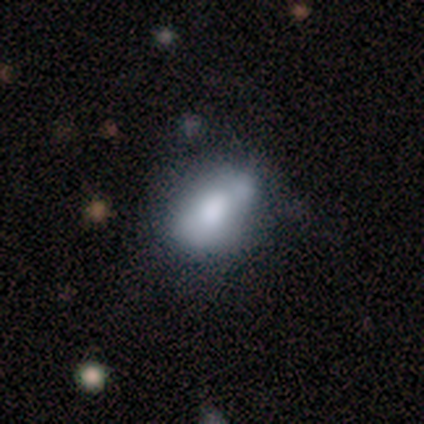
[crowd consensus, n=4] This is likely a featured or disk galaxy (75%). It is clearly not viewed edge-on (100%). Bar: likely no (67%). Spiral arm pattern: clearly no (100%). Central bulge: likely large (67%). Merging: possibly none (50%).